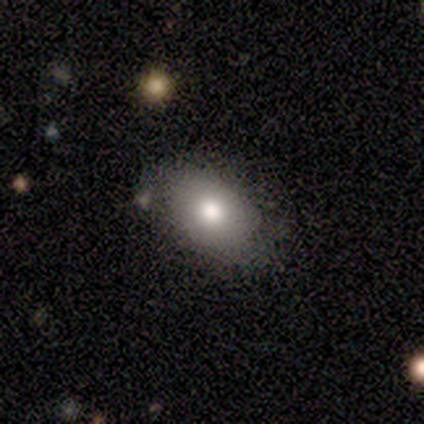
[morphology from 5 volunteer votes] type=smooth (60%); roundness=in between (100%); merging=none (75%).